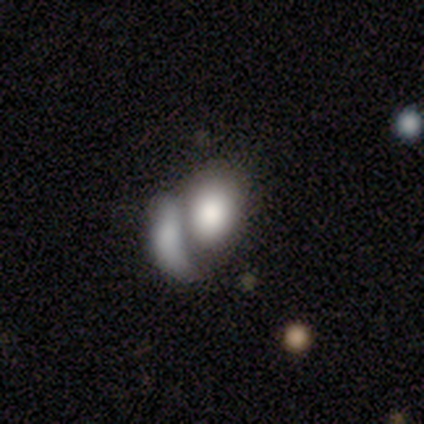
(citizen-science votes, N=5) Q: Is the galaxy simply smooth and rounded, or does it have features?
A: smooth — 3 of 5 (60%).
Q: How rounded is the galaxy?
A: in between — 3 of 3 (100%).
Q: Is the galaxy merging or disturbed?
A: none — 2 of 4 (50%, tied with merger).